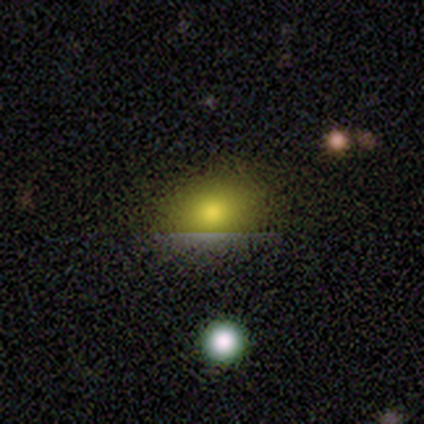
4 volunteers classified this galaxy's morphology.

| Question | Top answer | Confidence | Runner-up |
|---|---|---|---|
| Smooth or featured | star or artifact | 75% | smooth (25%) |